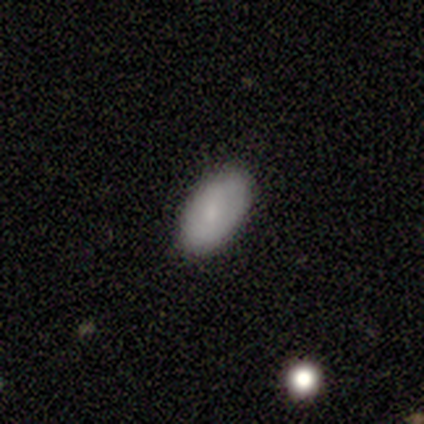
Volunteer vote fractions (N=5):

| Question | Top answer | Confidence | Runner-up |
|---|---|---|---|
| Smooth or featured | smooth | 100% | — |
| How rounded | in between | 100% | — |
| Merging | none | 80% | minor disturbance (20%) |